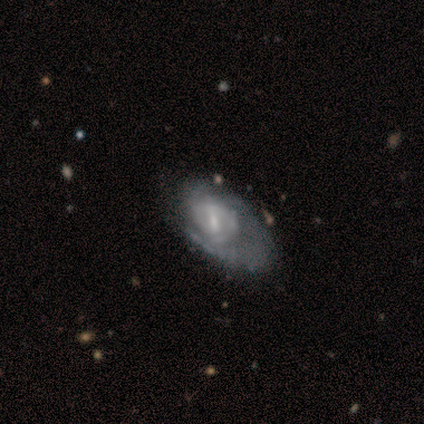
A featured or disk galaxy (100%) with a weak bar (50%, tied with no), 1 (33%, tied with 3 and can't tell) medium (67%) spiral arms (75%) and a moderate central bulge (50%, tied with small).

Vote fractions:
- Smooth or featured? featured or disk: 100% / smooth: 0% / star or artifact: 0%
- Edge-on disk? no: 80% / yes: 20%
- Bar? weak: 50% (tied) / no: 50% (tied) / strong: 0%
- Spiral arms? yes: 75% / no: 25%
- Spiral winding? medium: 67% / tight: 33% / loose: 0%
- Spiral arm count? 1: 33% (tied) / 3: 33% (tied) / can't tell: 33% (tied) / 2: 0% / 4: 0% / more than 4: 0%
- Bulge size? moderate: 50% (tied) / small: 50% (tied) / dominant: 0% / large: 0% / none: 0%
- Merging? none: 60% / minor disturbance: 40% / major disturbance: 0% / merger: 0%